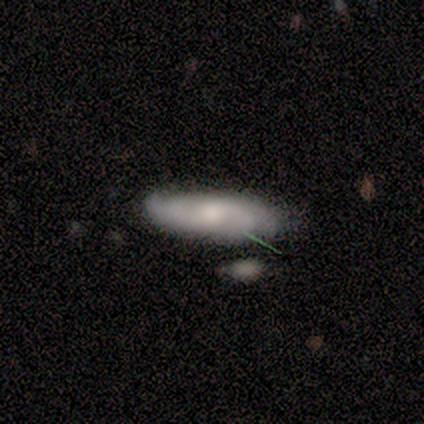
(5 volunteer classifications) Smooth or featured? 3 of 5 (60%) said featured or disk. Edge-on disk? 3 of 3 (100%) said no. Bar? 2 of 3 (67%) said no. Spiral arms? 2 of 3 (67%) said yes. Spiral winding? 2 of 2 (100%) said medium. Spiral arm count? 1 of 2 (50%, tied with can't tell) said 4. Bulge size? 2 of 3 (67%) said moderate. Merging? 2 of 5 (40%, tied with minor disturbance) said none.